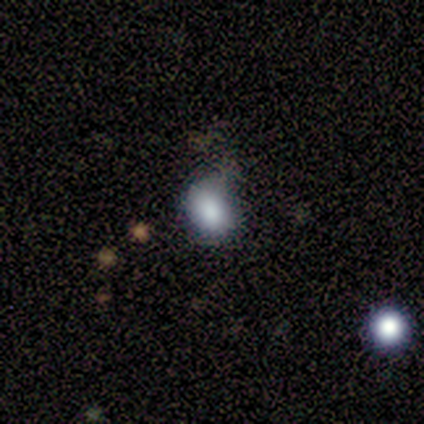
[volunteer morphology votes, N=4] Smooth or featured? 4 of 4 (100%) said smooth. How rounded? 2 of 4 (50%, tied with in between) said round. Merging? 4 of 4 (100%) said none.